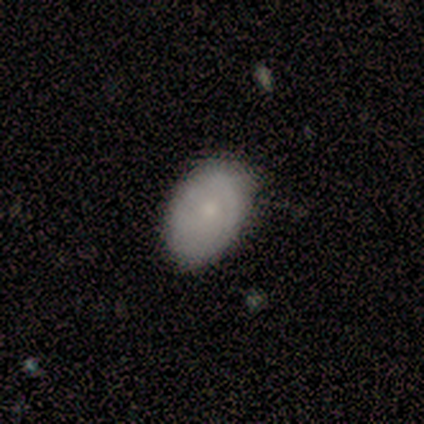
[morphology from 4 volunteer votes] Overall: smooth (75%). How rounded: in between (67%; round 33%). Merging: none (100%).